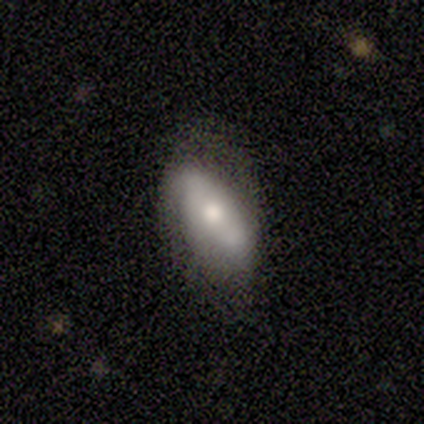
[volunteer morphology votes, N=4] Smooth or featured? 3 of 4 (75%) said smooth. How rounded? 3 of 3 (100%) said in between. Merging? 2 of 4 (50%, tied with minor disturbance) said none.